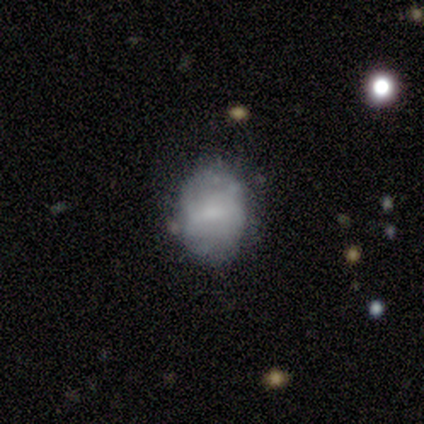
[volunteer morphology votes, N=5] smooth 60%, featured or disk 40%, star or artifact 0%. Down the decision tree: how rounded — in between (100%); merging — none (80%).